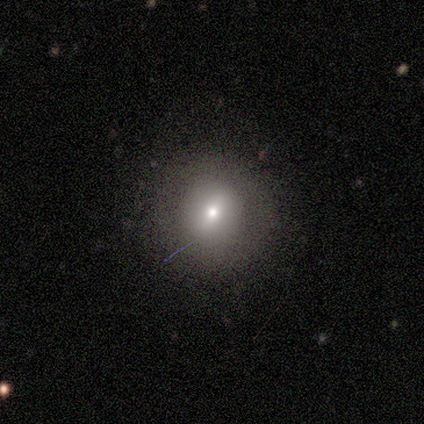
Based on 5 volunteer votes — This is clearly a smooth galaxy (80%). How rounded: clearly round (100%). Merging: clearly none (100%).